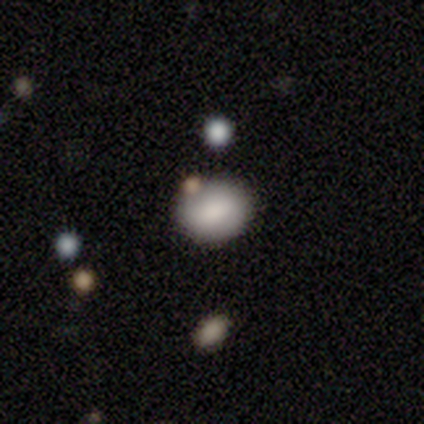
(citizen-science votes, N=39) Overall: smooth (77%). How rounded: in between (60%; round 40%). Merging: none (71%).